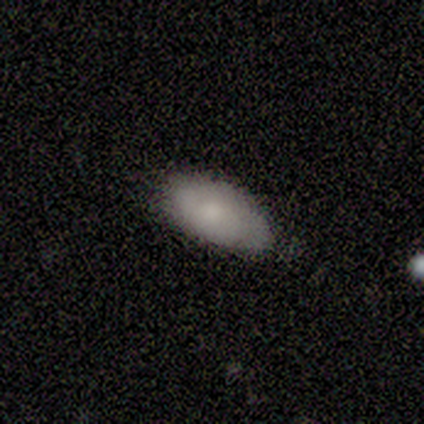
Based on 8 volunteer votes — Smooth or featured? smooth (88%)
How rounded? in between (100%)
Merging? none (57%)